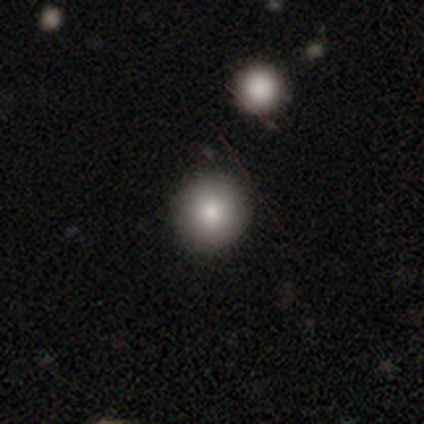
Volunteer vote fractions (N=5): A smooth galaxy with no disk features (80%) that is round (100%). Merging: none (75%).